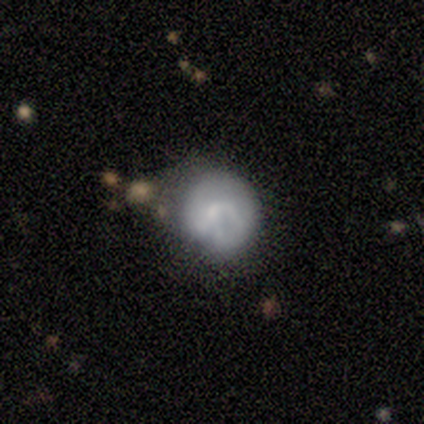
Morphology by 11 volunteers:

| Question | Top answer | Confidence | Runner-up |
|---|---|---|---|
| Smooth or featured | featured or disk | 55% | smooth (45%) |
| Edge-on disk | no | 100% | — |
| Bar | no | 100% | — |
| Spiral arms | no | 83% | yes (17%) |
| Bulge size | none | 67% | large (17%) |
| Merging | minor disturbance | 73% | major disturbance (18%) |